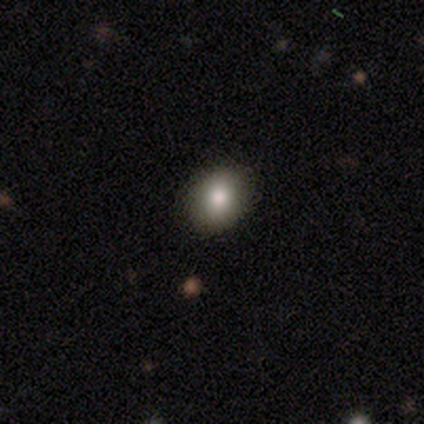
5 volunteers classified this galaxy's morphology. A smooth galaxy with no disk features (80%) that is in between round and cigar-shaped (75%).

Vote fractions:
- Smooth or featured? smooth: 80% / star or artifact: 20% / featured or disk: 0%
- How rounded? in between: 75% / round: 25% / cigar-shaped: 0%
- Merging? none: 75% / minor disturbance: 25% / major disturbance: 0% / merger: 0%